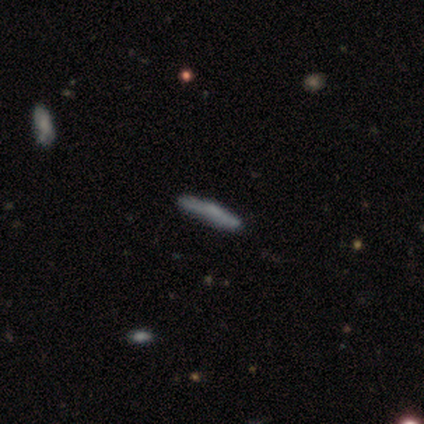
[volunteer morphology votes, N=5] Smooth or featured: featured or disk — 60% (smooth — 20%)
Edge-on disk: yes — 100%
Edge-on bulge: boxy — 100%
Merging: none — 100%